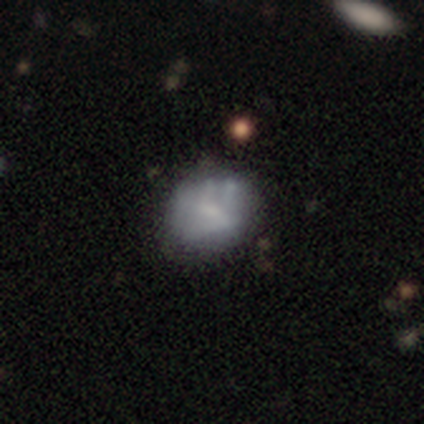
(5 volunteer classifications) A smooth galaxy with no disk features (100%) that is round (80%).

Vote fractions:
- Smooth or featured? smooth: 100% / featured or disk: 0% / star or artifact: 0%
- How rounded? round: 80% / in between: 20% / cigar-shaped: 0%
- Merging? none: 60% / minor disturbance: 20% / major disturbance: 20% / merger: 0%